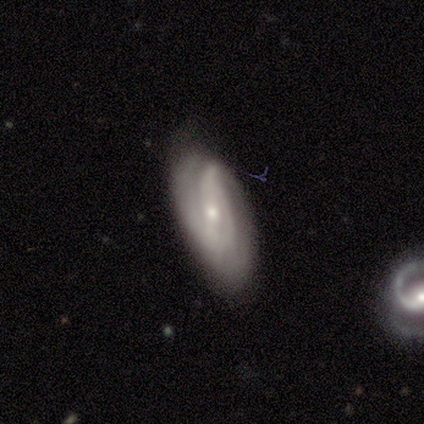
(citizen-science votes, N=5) This appears to be a featured or disk galaxy (80%) with a strong bar (33%, tied with weak and no), 2 (67%) medium (67%) spiral arms (100%) and a moderate central bulge (100%). Merging: none (60%).